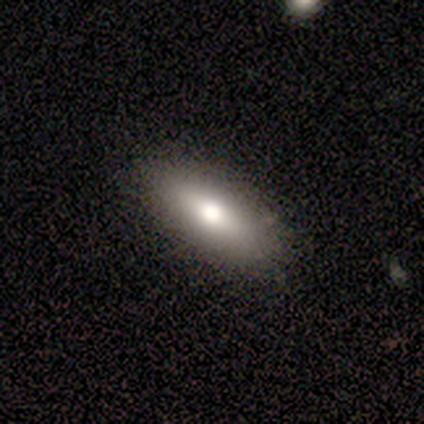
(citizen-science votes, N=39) This is likely a smooth galaxy (72%). How rounded: likely in between (61%). Merging: clearly none (92%).